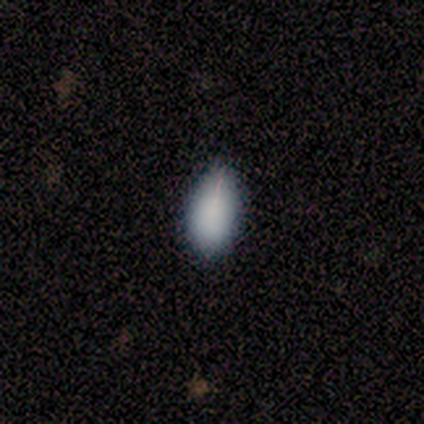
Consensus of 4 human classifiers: Volunteers were most divided on "smooth or featured": smooth: 75%, featured or disk: 25%, star or artifact: 0%. More confident: how rounded — in between (100%); merging — minor disturbance (75%).